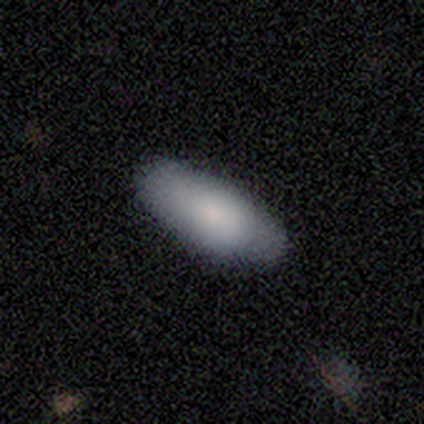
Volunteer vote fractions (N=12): This is clearly a smooth galaxy (83%). How rounded: clearly in between (90%). Merging: clearly none (100%).